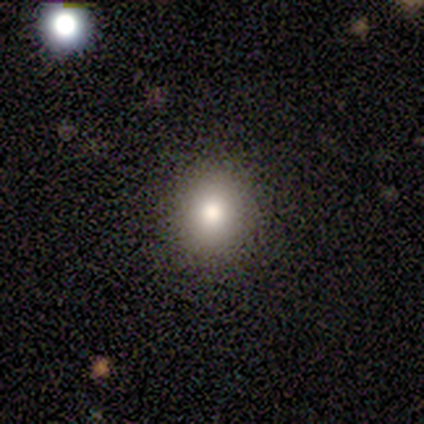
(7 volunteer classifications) smooth 100%, featured or disk 0%, star or artifact 0%. Down the decision tree: how rounded — round (86%); merging — none (100%).